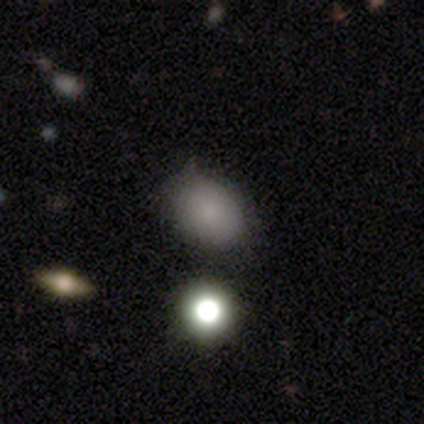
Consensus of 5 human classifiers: This is clearly a smooth galaxy (80%). How rounded: possibly round (50%, tied with in between). Merging: clearly none (100%).